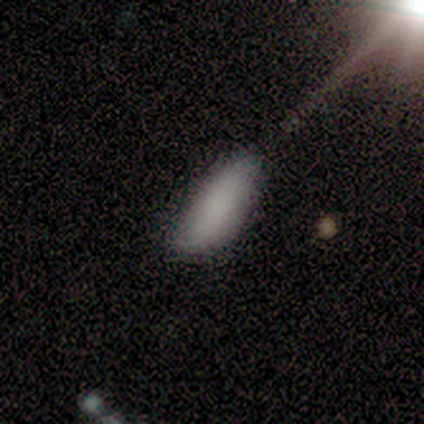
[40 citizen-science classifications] Overall: smooth (82%). How rounded: in between (85%). Merging: none (51%; minor disturbance 18%).